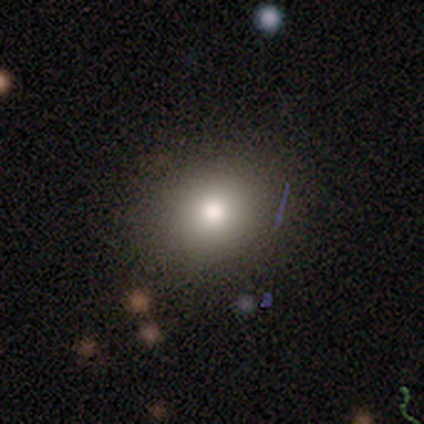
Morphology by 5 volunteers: type=smooth (80%); roundness=round (50%, tied with in between); merging=none (100%).